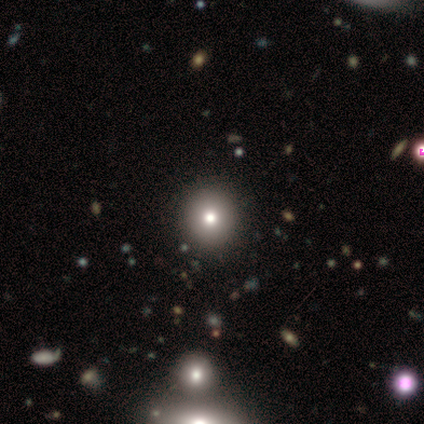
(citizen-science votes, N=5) Smooth or featured? smooth (80%)
How rounded? round (75%)
Merging? none (100%)